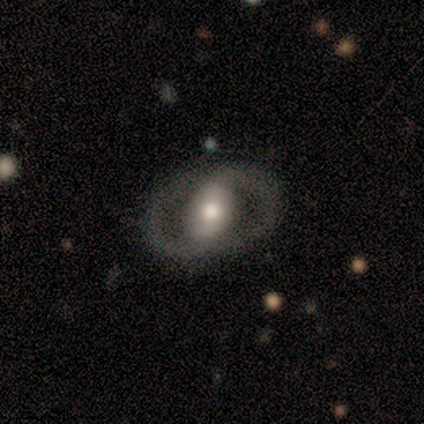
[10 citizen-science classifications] A featured or disk galaxy (100%) with a strong bar (40%), 2 (100%) tight (80%) spiral arms (50%, tied with no) and a moderate central bulge (70%). Merging: none (100%).